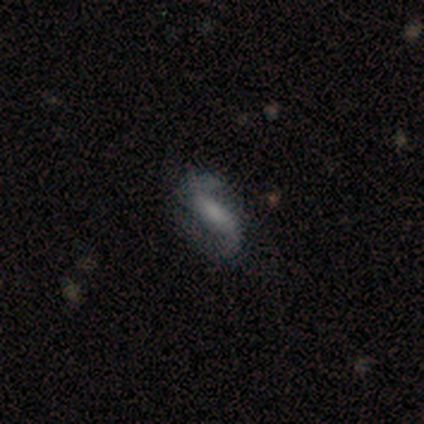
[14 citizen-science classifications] Volunteers were most divided on "bar": strong: 44%, weak: 33%, no: 22%. Remaining: spiral arm count — 2 (100%); spiral arms — yes (89%); edge-on disk — no (82%); smooth or featured — featured or disk (79%); spiral winding — loose (75%); merging — minor disturbance (54%); bulge size — none (44%).